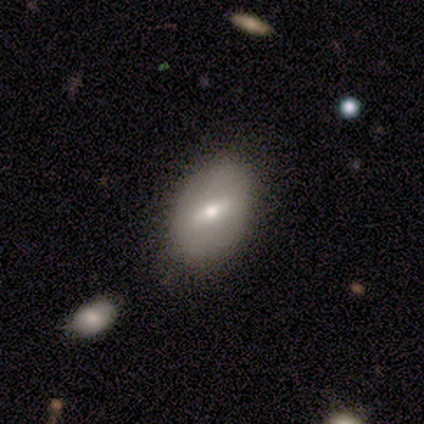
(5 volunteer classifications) Smooth or featured? 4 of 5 (80%) said smooth. How rounded? 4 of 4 (100%) said in between. Merging? 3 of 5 (60%) said none.